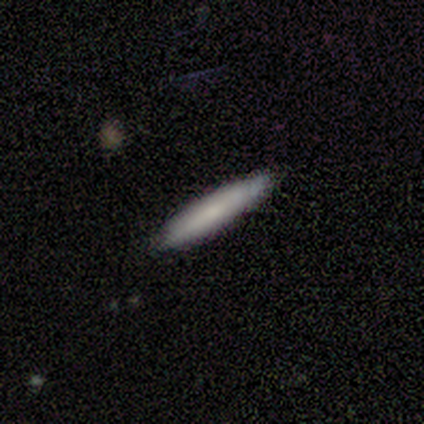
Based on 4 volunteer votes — smooth_or_featured: smooth (p=1.00)
how_rounded: cigar-shaped (p=1.00)
merging: none (p=1.00)